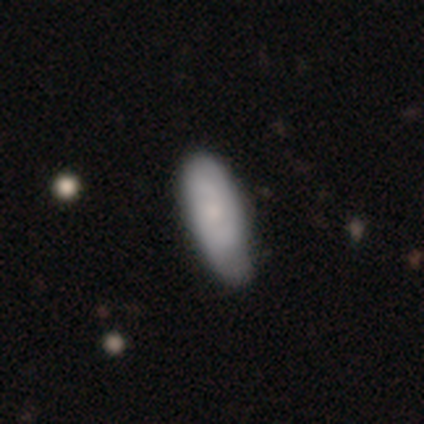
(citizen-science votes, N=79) Q: Smooth or featured?
A: smooth (62%); runner-up: featured or disk (37%)
Q: How rounded?
A: in between (69%); runner-up: cigar-shaped (24%)
Q: Merging?
A: minor disturbance (24%); runner-up: none (19%)